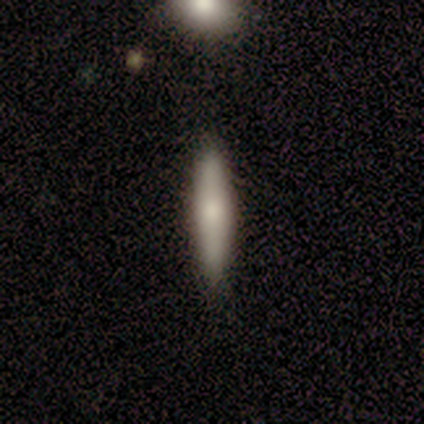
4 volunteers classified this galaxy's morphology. Volunteers were most divided on "smooth or featured": smooth: 50%, featured or disk: 25%, star or artifact: 25%. More confident: how rounded — cigar-shaped (100%); merging — none (67%).